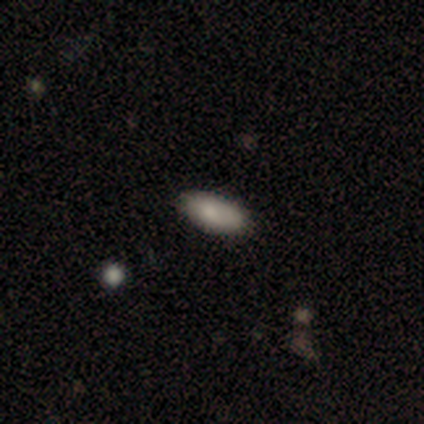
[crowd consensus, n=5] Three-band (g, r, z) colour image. It shows a smooth galaxy with no disk features (100%) that is in between round and cigar-shaped (100%). Merging: none (100%).